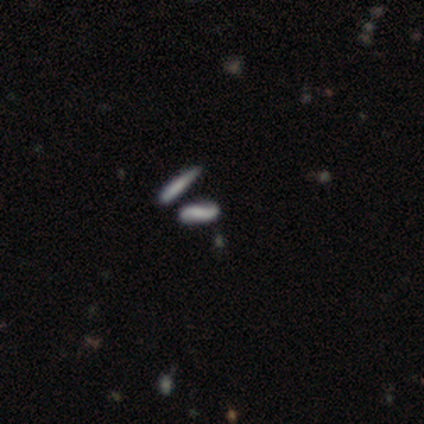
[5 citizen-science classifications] Smooth or featured? 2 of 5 (40%, tied with featured or disk) said smooth. How rounded? 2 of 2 (100%) said cigar-shaped. Merging? 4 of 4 (100%) said none.